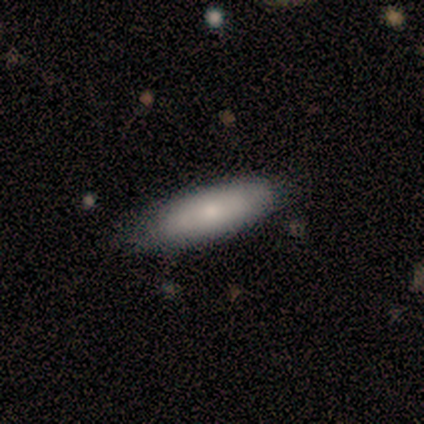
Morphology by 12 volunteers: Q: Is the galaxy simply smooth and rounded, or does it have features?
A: smooth — 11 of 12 (92%).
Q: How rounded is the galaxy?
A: in between — 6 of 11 (55%).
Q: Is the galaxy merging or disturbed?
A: none — 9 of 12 (75%).